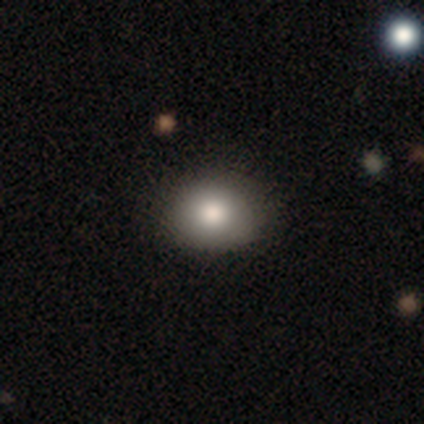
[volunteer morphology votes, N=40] Overall: smooth (85%). How rounded: round (65%; in between 35%). Merging: none (92%).